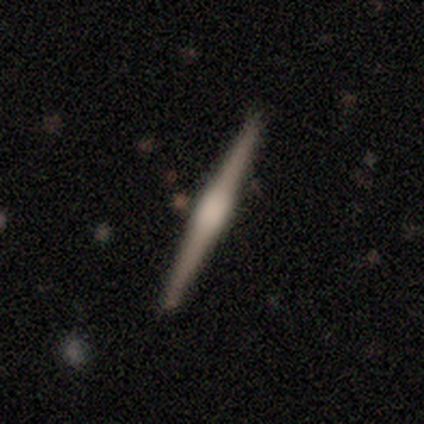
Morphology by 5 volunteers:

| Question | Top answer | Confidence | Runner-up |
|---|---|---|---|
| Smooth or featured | featured or disk | 60% | smooth (40%) |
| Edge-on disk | yes | 100% | — |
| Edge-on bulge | rounded | 100% | — |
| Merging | none | 80% | minor disturbance (20%) |